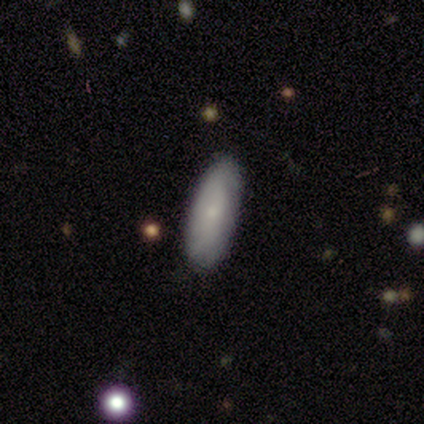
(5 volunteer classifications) smooth_or_featured: smooth (p=0.60) [alt: featured or disk p=0.20]
how_rounded: in between (p=0.67) [alt: cigar-shaped p=0.33]
merging: none (p=0.75) [alt: minor disturbance p=0.25]